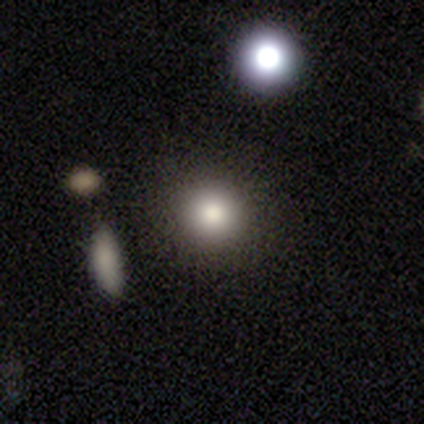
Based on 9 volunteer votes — This is likely a smooth galaxy (78%). How rounded: clearly round (86%). Merging: likely none (71%).